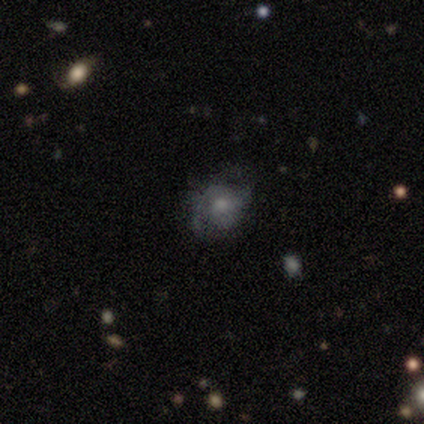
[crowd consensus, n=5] smooth_or_featured: smooth (p=0.60) [alt: featured or disk p=0.20]
how_rounded: round (p=0.67) [alt: in between p=0.33]
merging: none (p=0.75) [alt: minor disturbance p=0.25]